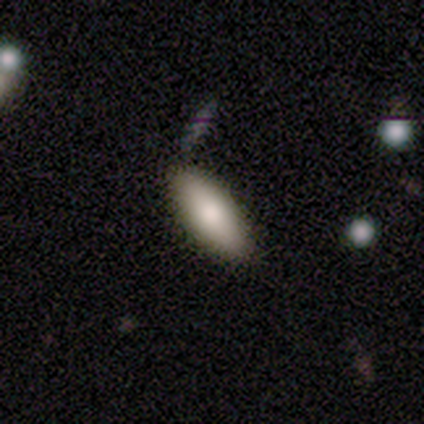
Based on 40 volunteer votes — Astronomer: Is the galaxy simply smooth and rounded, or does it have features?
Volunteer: smooth — 78%.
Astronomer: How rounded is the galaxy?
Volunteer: in between — 68%.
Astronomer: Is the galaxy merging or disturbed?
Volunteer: none — 95%.